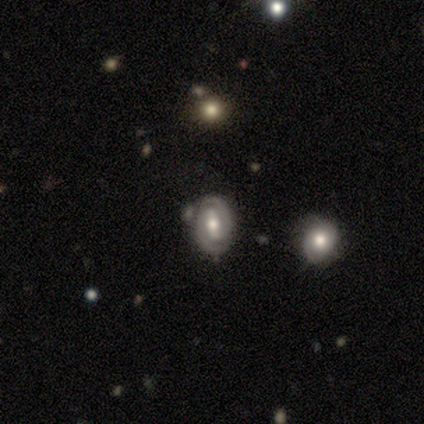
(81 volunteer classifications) A featured or disk galaxy (85%) with a strong bar (57%), 2 (92%) tight (69%) spiral arms (96%) and a moderate central bulge (79%).

Vote fractions:
- Smooth or featured? featured or disk: 85% / smooth: 9% / star or artifact: 6%
- Edge-on disk? no: 97% / yes: 3%
- Bar? strong: 57% / weak: 27% / no: 16%
- Spiral arms? yes: 96% / no: 4%
- Spiral winding? tight: 69% / medium: 25% / loose: 6%
- Spiral arm count? 2: 92% / can't tell: 6% / 1: 2% / 3: 0% / 4: 0% / more than 4: 0%
- Bulge size? moderate: 79% / large: 10% / small: 10% / dominant: 0% / none: 0%
- Merging? none: 74% / minor disturbance: 14% / merger: 12% / major disturbance: 0%